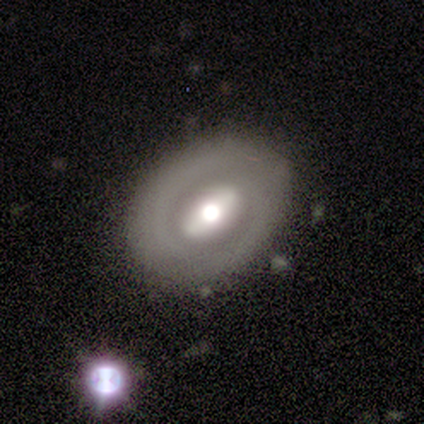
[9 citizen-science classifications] Q: Smooth or featured?
A: featured or disk (78%); runner-up: smooth (22%)
Q: Edge-on disk?
A: no (100%)
Q: Bar?
A: strong (43%); tied with: weak (43%)
Q: Spiral arms?
A: no (86%); runner-up: yes (14%)
Q: Bulge size?
A: moderate (100%)
Q: Merging?
A: none (100%)